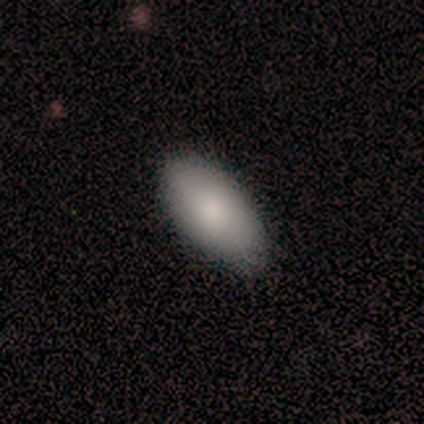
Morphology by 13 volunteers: Smooth or featured?
  - smooth: 100% *
  - featured or disk: 0%
  - star or artifact: 0%
How rounded?
  - in between: 92% *
  - round: 8%
  - cigar-shaped: 0%
Merging?
  - none: 77% *
  - minor disturbance: 23%
  - major disturbance: 0%
  - merger: 0%